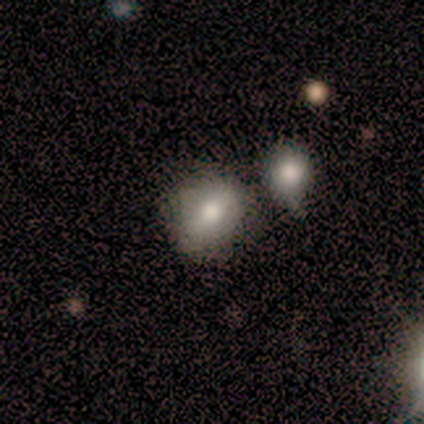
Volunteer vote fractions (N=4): smooth 100%, featured or disk 0%, star or artifact 0%. Down the decision tree: how rounded — round (75%); merging — none (50%, tied with minor disturbance).